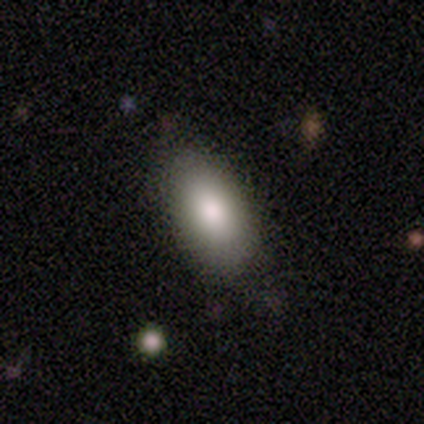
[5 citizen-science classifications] Q: Smooth or featured?
A: smooth (100%)
Q: How rounded?
A: in between (100%)
Q: Merging?
A: none (60%); runner-up: minor disturbance (40%)